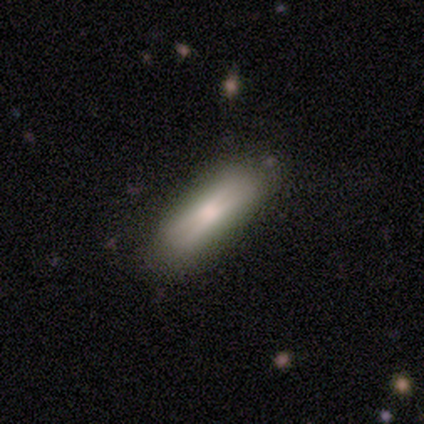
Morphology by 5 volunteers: smooth 80%, featured or disk 20%, star or artifact 0%. Down the decision tree: how rounded — cigar-shaped (75%); merging — none (60%).